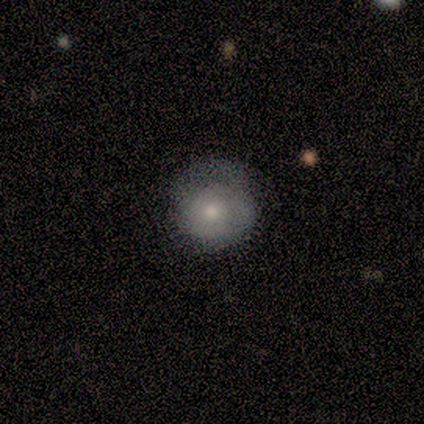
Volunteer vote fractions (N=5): smooth_or_featured: smooth (p=0.80) [alt: featured or disk p=0.20]
how_rounded: round (p=1.00)
merging: none (p=0.40) [tied with: minor disturbance p=0.40]